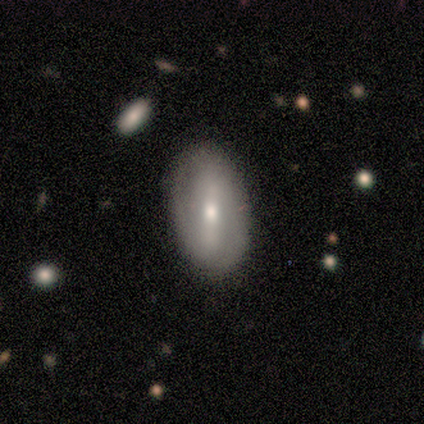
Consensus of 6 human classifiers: Smooth or featured? 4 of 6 (67%) said featured or disk. Edge-on disk? 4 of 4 (100%) said no. Bar? 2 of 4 (50%, tied with weak) said strong. Spiral arms? 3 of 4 (75%) said no. Bulge size? 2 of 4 (50%, tied with small) said moderate. Merging? 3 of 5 (60%) said none.